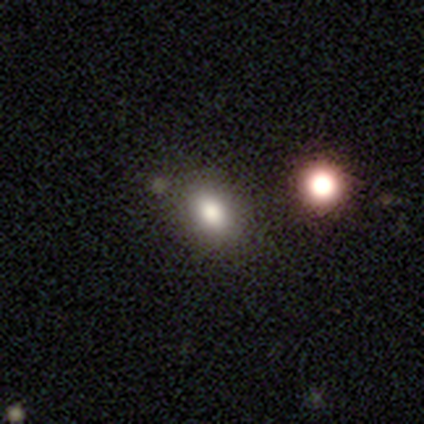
Overall: smooth (76%). How rounded: in between (69%; round 31%). Merging: none (81%).